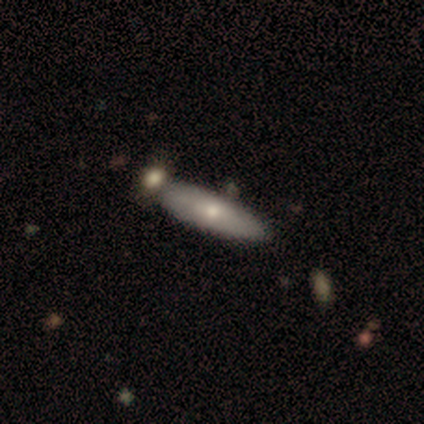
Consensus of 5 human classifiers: Morphology: type=smooth (80%); roundness=in between (75%); merging=none (80%).